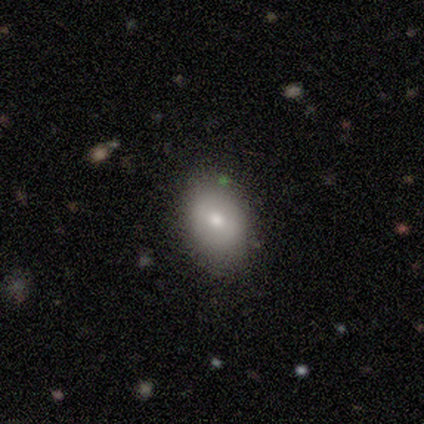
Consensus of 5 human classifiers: Morphology: type=smooth (60%); roundness=in between (67%); merging=none (100%).